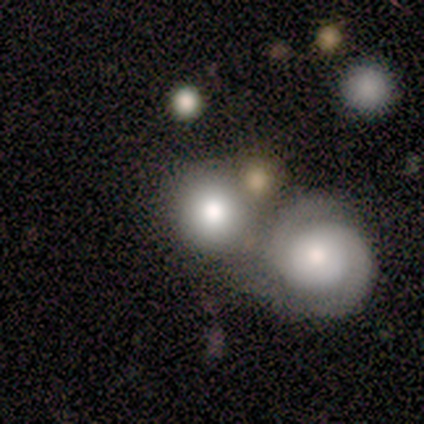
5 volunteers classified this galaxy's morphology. smooth_or_featured: featured or disk (p=0.60) [alt: smooth p=0.40]
disk_edge_on: no (p=1.00)
bar: no (p=1.00)
has_spiral_arms: yes (p=1.00)
spiral_winding: tight (p=0.67) [alt: medium p=0.33]
spiral_arm_count: 2 (p=1.00)
bulge_size: dominant (p=0.33) [tied with: moderate p=0.33, small p=0.33]
merging: none (p=0.60) [alt: merger p=0.40]